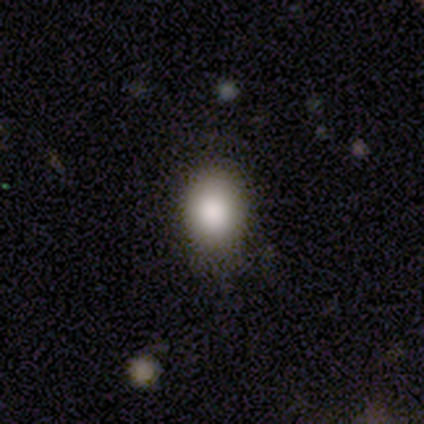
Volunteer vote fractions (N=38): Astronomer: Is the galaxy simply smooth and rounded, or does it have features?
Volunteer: smooth — 84%.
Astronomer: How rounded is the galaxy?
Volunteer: in between — 72%.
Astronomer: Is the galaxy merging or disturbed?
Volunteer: none — 82%.